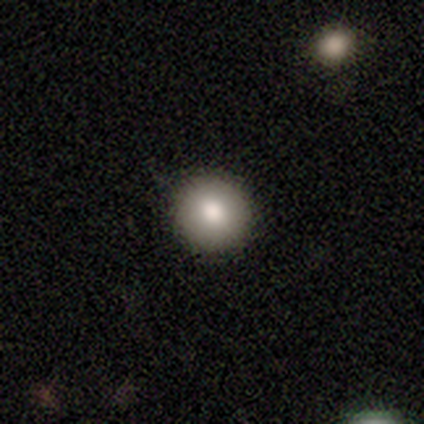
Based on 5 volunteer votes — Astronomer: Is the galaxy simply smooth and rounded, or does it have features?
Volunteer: smooth — 80%.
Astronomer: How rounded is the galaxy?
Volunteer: round — 100%.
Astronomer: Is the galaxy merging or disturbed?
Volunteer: none — 100%.